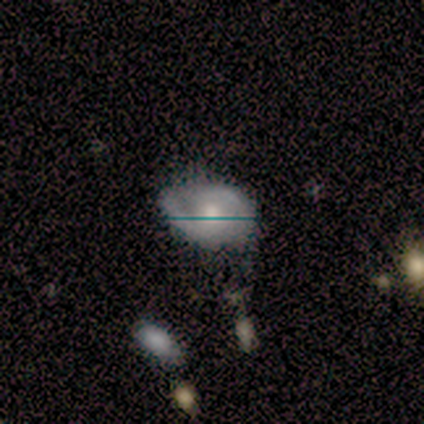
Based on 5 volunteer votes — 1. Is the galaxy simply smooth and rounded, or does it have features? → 60% featured or disk, 40% smooth, 0% star or artifact.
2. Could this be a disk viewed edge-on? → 100% no, 0% yes.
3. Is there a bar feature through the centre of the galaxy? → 67% no, 33% weak, 0% strong.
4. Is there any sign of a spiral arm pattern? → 67% yes, 33% no.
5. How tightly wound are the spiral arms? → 50% medium (tied), 50% loose (tied), 0% tight.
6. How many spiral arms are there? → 100% 2, 0% 1, 0% 3, 0% 4, 0% more than 4, 0% can't tell.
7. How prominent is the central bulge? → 100% moderate, 0% dominant, 0% large, 0% small, 0% none.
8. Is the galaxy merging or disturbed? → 40% none (tied), 40% minor disturbance (tied), 20% major disturbance, 0% merger.